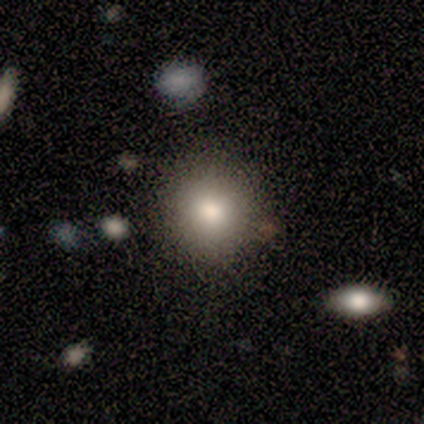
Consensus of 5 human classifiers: smooth_or_featured: smooth (p=0.80) [alt: featured or disk p=0.20]
how_rounded: round (p=1.00)
merging: none (p=1.00)